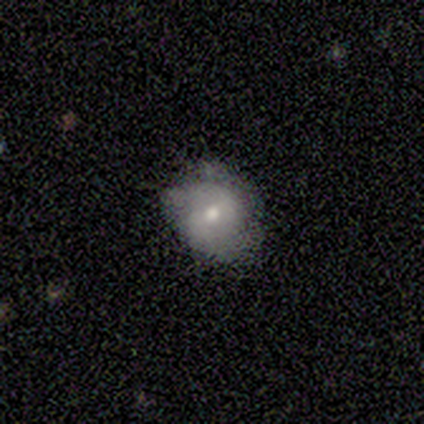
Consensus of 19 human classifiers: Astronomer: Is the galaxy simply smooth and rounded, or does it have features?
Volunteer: smooth — 53% (runner-up: featured or disk, 47%).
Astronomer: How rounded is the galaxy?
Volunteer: round — 70%.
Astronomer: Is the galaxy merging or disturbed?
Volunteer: none — 79%.